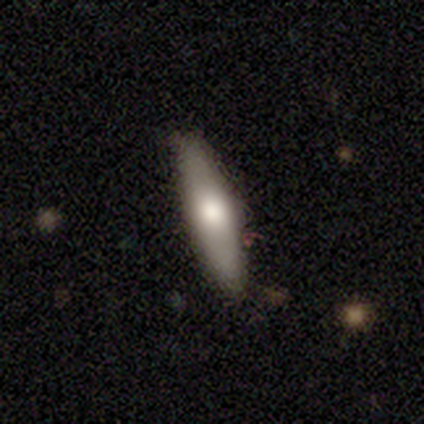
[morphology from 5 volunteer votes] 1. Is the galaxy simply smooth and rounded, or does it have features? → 60% smooth, 40% featured or disk, 0% star or artifact.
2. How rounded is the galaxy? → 100% cigar-shaped, 0% round, 0% in between.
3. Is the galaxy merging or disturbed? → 100% none, 0% minor disturbance, 0% major disturbance, 0% merger.